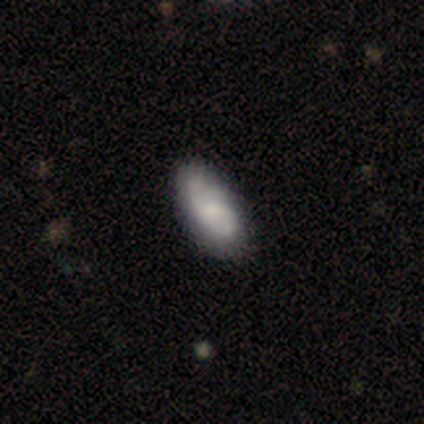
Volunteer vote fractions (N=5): featured or disk 60%, smooth 40%, star or artifact 0%. Down the decision tree: edge-on disk — no (100%); bar — weak (67%); spiral arms — yes (67%); spiral arm count — 1 (50%, tied with can't tell); spiral winding — tight (50%, tied with medium); bulge size — small (67%); merging — none (80%).